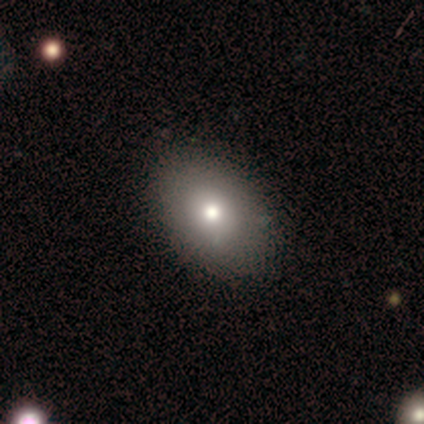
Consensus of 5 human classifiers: This appears to be a smooth galaxy with no disk features (80%) that is in between round and cigar-shaped (75%). Merging: none (75%).